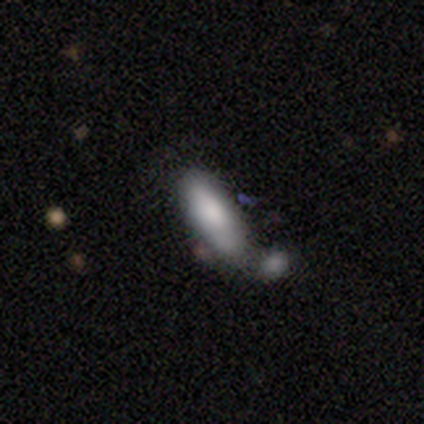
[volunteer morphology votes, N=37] smooth 86%, featured or disk 8%, star or artifact 5%. Down the decision tree: how rounded — in between (59%); merging — merger (54%).